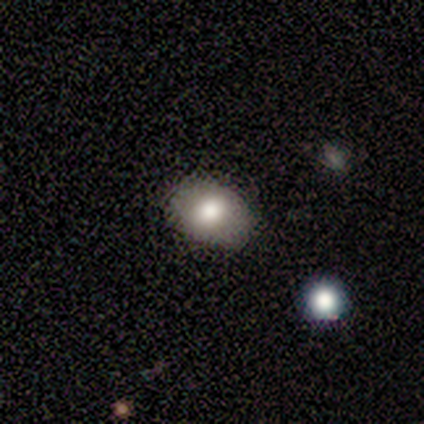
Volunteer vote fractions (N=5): Smooth or featured?
  - smooth: 80% *
  - star or artifact: 20%
  - featured or disk: 0%
How rounded?
  - in between: 100% *
  - round: 0%
  - cigar-shaped: 0%
Merging?
  - none: 75% *
  - minor disturbance: 25%
  - major disturbance: 0%
  - merger: 0%